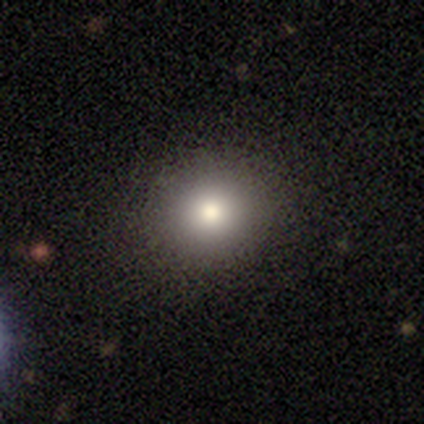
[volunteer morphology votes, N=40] Smooth or featured?
  - smooth: 85% *
  - featured or disk: 8%
  - star or artifact: 8%
How rounded?
  - round: 94% *
  - in between: 6%
  - cigar-shaped: 0%
Merging?
  - none: 97% *
  - minor disturbance: 3%
  - major disturbance: 0%
  - merger: 0%